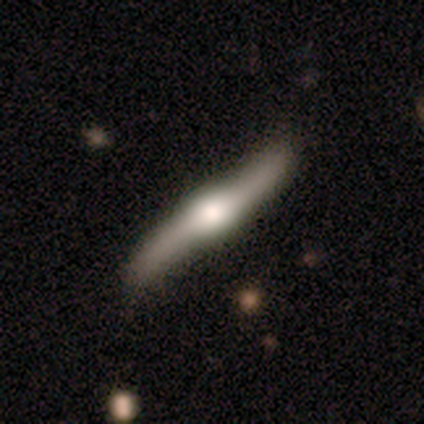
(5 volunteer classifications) A featured or disk galaxy (100%) viewed edge-on (60%) with a rounded central bulge (67%). Merging: none (100%).